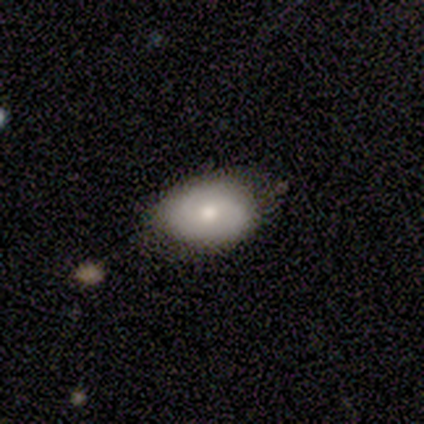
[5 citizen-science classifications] Q: Smooth or featured?
A: smooth (60%); runner-up: featured or disk (40%)
Q: How rounded?
A: in between (100%)
Q: Merging?
A: none (80%); runner-up: merger (20%)